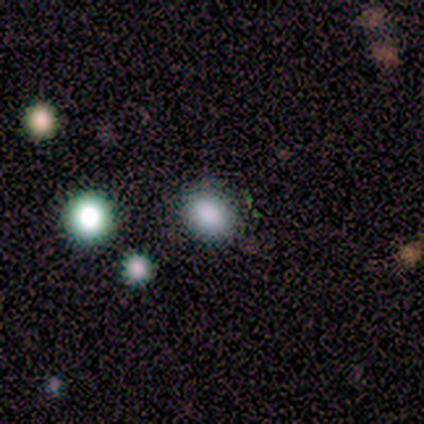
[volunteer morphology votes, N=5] This appears to be a smooth galaxy with no disk features (100%) that is in between round and cigar-shaped (80%). Merging: none (100%).